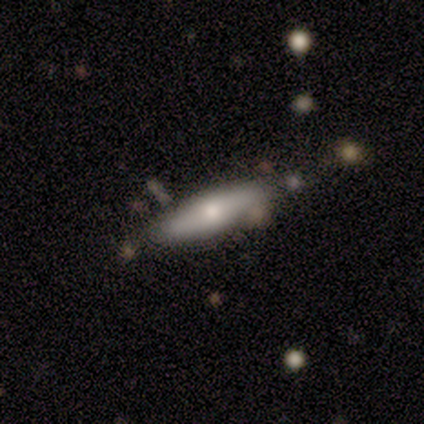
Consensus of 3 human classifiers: Smooth or featured?
  - featured or disk: 67% *
  - smooth: 33%
  - star or artifact: 0%
Edge-on disk?
  - yes: 50% * (tied)
  - no: 50% * (tied)
Edge-on bulge?
  - boxy: 100% *
  - none: 0%
  - rounded: 0%
Merging?
  - none: 67% *
  - merger: 33%
  - minor disturbance: 0%
  - major disturbance: 0%